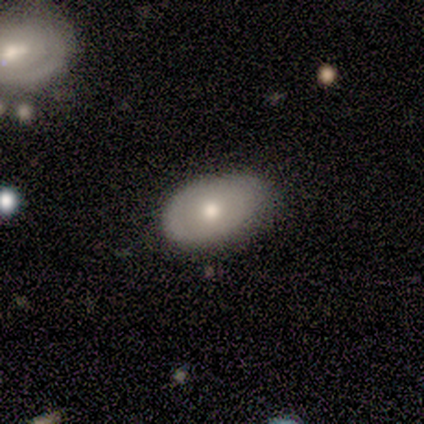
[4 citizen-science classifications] Smooth or featured? smooth (50%)
How rounded? in between (100%)
Merging? none (100%)